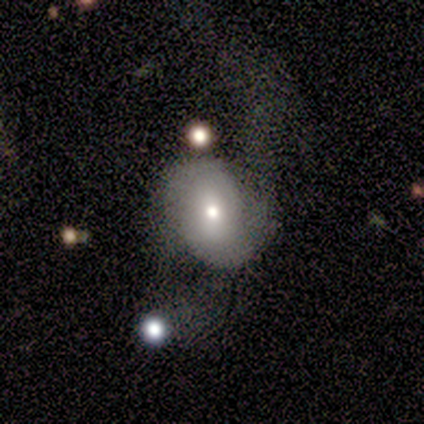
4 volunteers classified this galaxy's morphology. Volunteers were most divided on "bar": weak: 67%, no: 33%, strong: 0%. More confident: edge-on disk — no (100%); spiral arms — yes (100%); bulge size — small (100%); smooth or featured — featured or disk (75%); merging — none (75%); spiral winding — loose (67%); spiral arm count — 2 (67%).